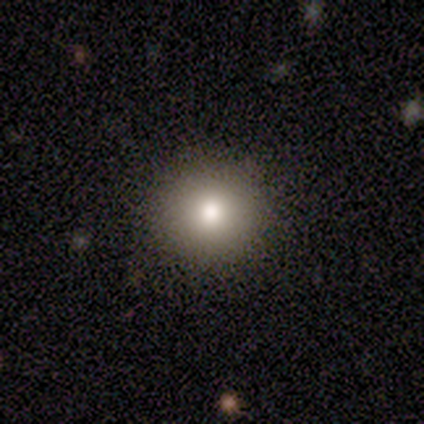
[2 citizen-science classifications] smooth-or-featured: smooth: 50% (tied) | featured or disk: 50% (tied) | star or artifact: 0%
  how-rounded: round: 100% | in between: 0% | cigar-shaped: 0%
  merging: none: 50% (tied) | minor disturbance: 50% (tied) | major disturbance: 0% | merger: 0%